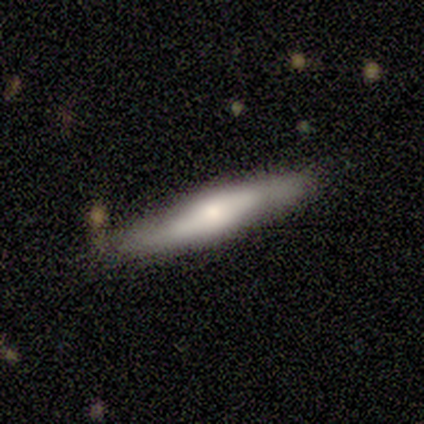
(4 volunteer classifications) This appears to be a smooth galaxy with no disk features (100%) that is cigar-shaped (100%). Merging: none (100%).